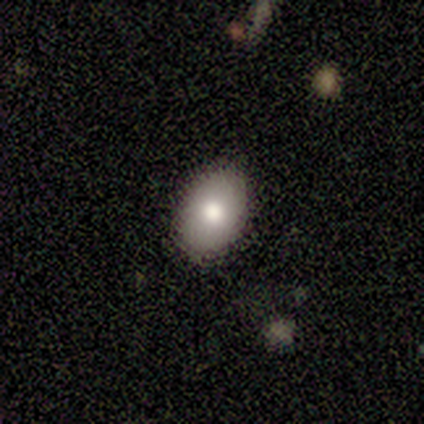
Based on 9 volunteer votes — Smooth or featured: smooth — 89% (featured or disk — 11%)
How rounded: in between — 100%
Merging: none — 89% (minor disturbance — 11%)